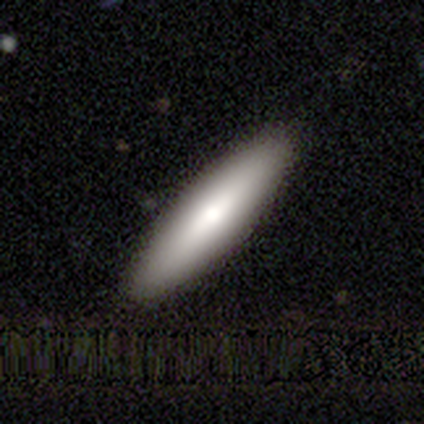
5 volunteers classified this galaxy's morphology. smooth 80%, featured or disk 20%, star or artifact 0%. Down the decision tree: how rounded — cigar-shaped (75%); merging — none (100%).